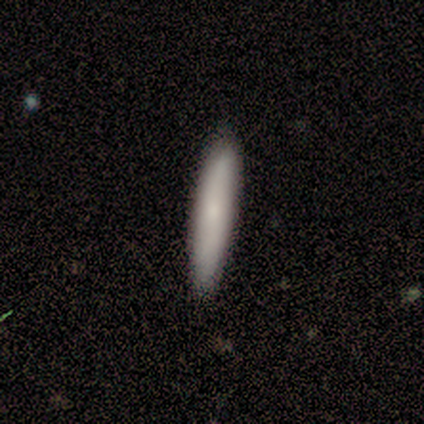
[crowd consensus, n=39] smooth_or_featured: smooth (p=0.69) [alt: featured or disk p=0.21]
how_rounded: cigar-shaped (p=0.78) [alt: in between p=0.22]
merging: none (p=0.89) [alt: minor disturbance p=0.09]